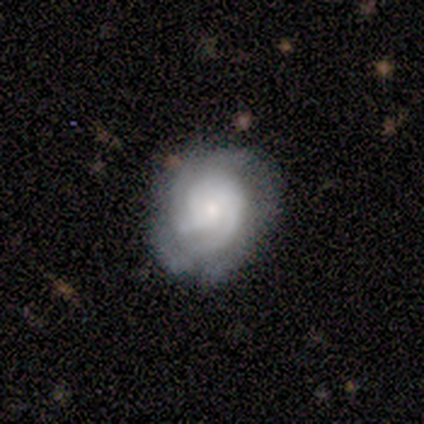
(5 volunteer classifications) Overall: featured or disk (100%). Edge-on disk: no (100%). Bar: no (80%). Spiral arms: yes (100%). Spiral arm count: 3 (40%, tied with 4). Spiral winding: tight (80%). Bulge size: small (80%). Merging: none (80%).